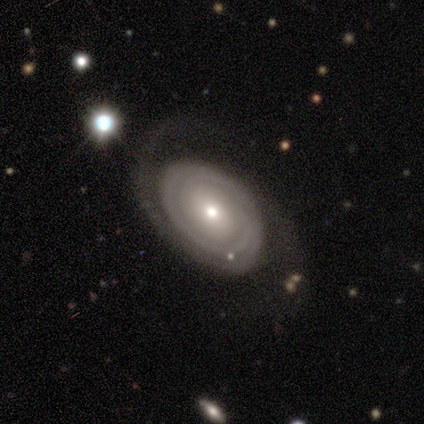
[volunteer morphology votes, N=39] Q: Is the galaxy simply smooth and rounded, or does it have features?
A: featured or disk — 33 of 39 (85%).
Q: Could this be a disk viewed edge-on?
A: no — 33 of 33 (100%).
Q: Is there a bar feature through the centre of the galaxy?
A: no — 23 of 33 (70%).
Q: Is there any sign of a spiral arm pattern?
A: yes — 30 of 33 (91%).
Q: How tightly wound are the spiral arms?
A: tight — 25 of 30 (83%).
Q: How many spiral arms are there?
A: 2 — 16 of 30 (53%).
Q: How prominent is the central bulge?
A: small — 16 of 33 (48%).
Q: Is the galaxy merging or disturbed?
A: none — 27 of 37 (73%).